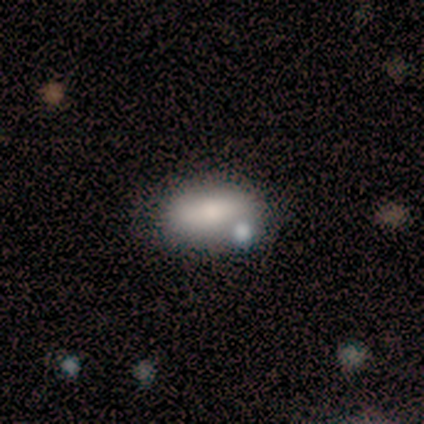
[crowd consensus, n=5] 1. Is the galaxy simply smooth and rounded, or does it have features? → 60% smooth, 40% star or artifact, 0% featured or disk.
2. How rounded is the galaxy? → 67% in between, 33% cigar-shaped, 0% round.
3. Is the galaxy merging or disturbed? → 67% none, 33% minor disturbance, 0% major disturbance, 0% merger.